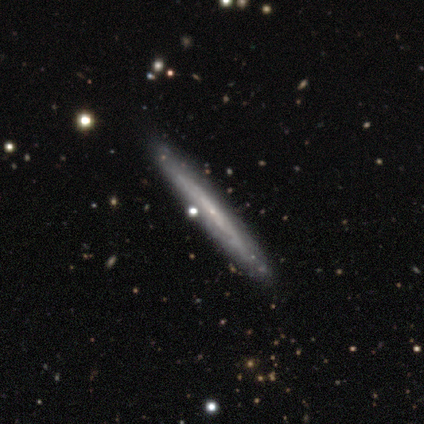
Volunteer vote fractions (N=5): smooth-or-featured: featured or disk: 80% | smooth: 20% | star or artifact: 0%
  disk-edge-on: yes: 100% | no: 0%
    edge-on-bulge: none: 75% | rounded: 25% | boxy: 0%
  merging: none: 100% | minor disturbance: 0% | major disturbance: 0% | merger: 0%